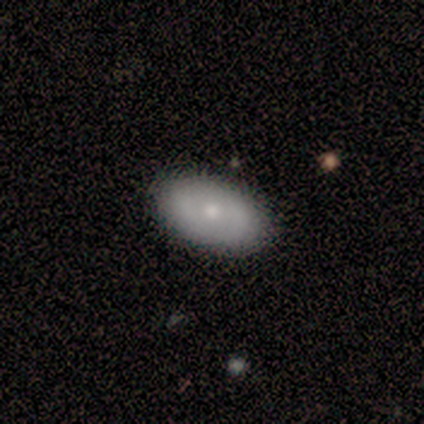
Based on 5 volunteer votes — A smooth galaxy with no disk features (60%) that is in between round and cigar-shaped (100%).

Vote fractions:
- Smooth or featured? smooth: 60% / featured or disk: 40% / star or artifact: 0%
- How rounded? in between: 100% / round: 0% / cigar-shaped: 0%
- Merging? none: 80% / minor disturbance: 20% / major disturbance: 0% / merger: 0%